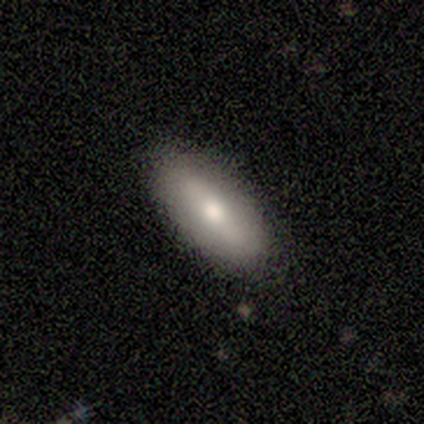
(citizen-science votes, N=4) Volunteers were most divided on "smooth or featured" (2-way tie): smooth: 50%, featured or disk: 50%, star or artifact: 0%. More confident: how rounded — in between (100%); merging — none (75%).